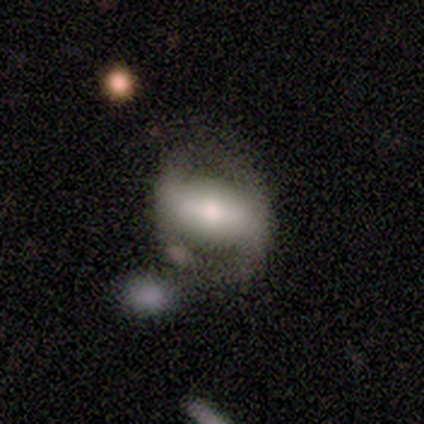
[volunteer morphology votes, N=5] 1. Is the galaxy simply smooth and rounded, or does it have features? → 80% featured or disk, 20% star or artifact, 0% smooth.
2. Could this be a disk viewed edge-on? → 100% no, 0% yes.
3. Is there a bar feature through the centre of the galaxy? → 75% strong, 25% weak, 0% no.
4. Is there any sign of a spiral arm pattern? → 50% yes (tied), 50% no (tied).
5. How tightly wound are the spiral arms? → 100% tight, 0% medium, 0% loose.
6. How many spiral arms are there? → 100% 2, 0% 1, 0% 3, 0% 4, 0% more than 4, 0% can't tell.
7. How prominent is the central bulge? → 50% moderate, 25% dominant, 25% large, 0% small, 0% none.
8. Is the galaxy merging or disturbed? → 75% none, 25% minor disturbance, 0% major disturbance, 0% merger.